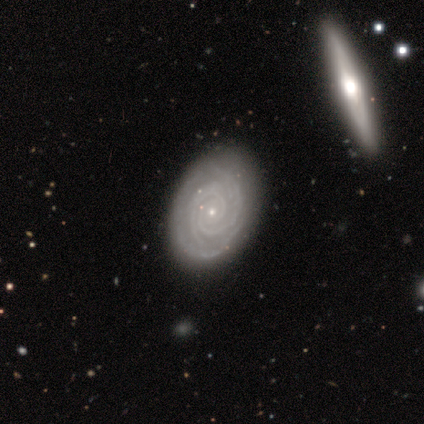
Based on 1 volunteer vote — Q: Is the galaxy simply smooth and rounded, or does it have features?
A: featured or disk — 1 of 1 (100%).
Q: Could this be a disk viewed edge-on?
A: yes — 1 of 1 (100%).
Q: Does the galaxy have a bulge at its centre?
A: rounded — 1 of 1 (100%).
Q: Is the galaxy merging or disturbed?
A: minor disturbance — 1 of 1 (100%).